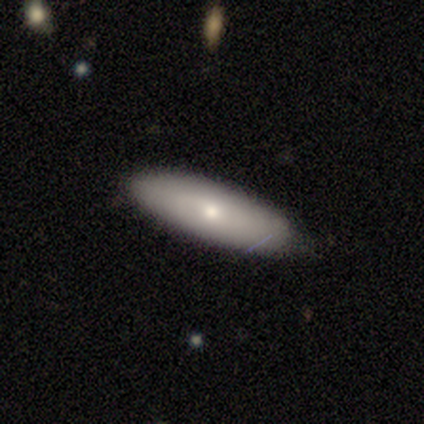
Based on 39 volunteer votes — Volunteers were most divided on "how rounded": in between: 57%, cigar-shaped: 43%, round: 0%. More confident: merging — none (87%); smooth or featured — smooth (72%).